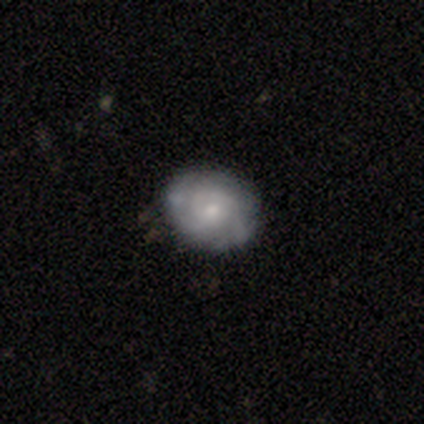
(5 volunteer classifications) Morphology: type=featured or disk (80%); edge-on=no (100%); bar=no (75%); spiral arms=yes (50%, tied with no); winding=tight (50%, tied with loose); arm count=can't tell (100%); bulge=moderate (50%, tied with small); merging=none (75%).